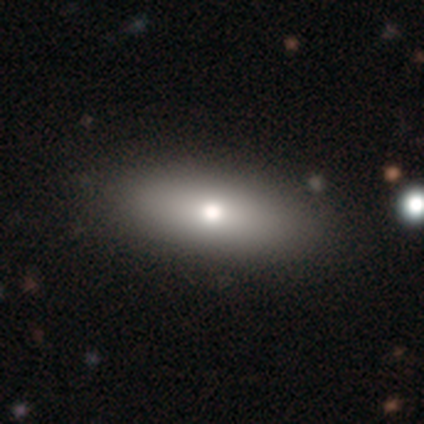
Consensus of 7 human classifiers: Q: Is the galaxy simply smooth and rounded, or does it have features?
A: smooth — 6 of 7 (86%).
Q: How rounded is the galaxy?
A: in between — 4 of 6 (67%).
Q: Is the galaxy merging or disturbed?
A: none — 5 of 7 (71%).